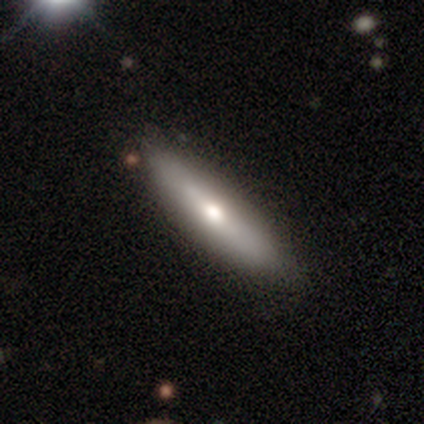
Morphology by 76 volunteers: Overall: smooth (49%; featured or disk 47%). How rounded: cigar-shaped (81%). Merging: none (86%).